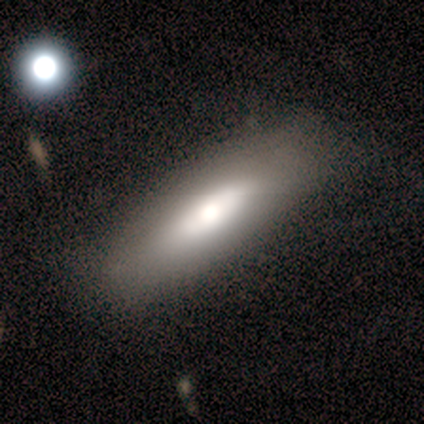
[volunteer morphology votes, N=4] Q: Smooth or featured?
A: smooth (75%); runner-up: featured or disk (25%)
Q: How rounded?
A: cigar-shaped (100%)
Q: Merging?
A: none (75%); runner-up: minor disturbance (25%)